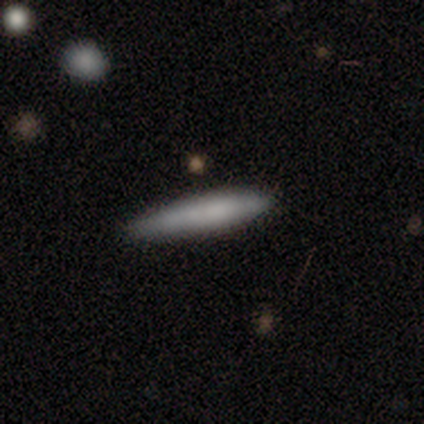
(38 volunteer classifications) Volunteers were most divided on "smooth or featured": smooth: 71%, featured or disk: 26%, star or artifact: 3%. More confident: how rounded — cigar-shaped (85%); merging — none (84%).